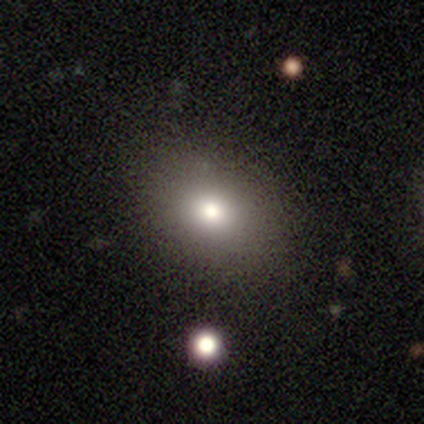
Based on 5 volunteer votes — Smooth or featured?
  - smooth: 80% *
  - star or artifact: 20%
  - featured or disk: 0%
How rounded?
  - in between: 75% *
  - round: 25%
  - cigar-shaped: 0%
Merging?
  - none: 100% *
  - minor disturbance: 0%
  - major disturbance: 0%
  - merger: 0%